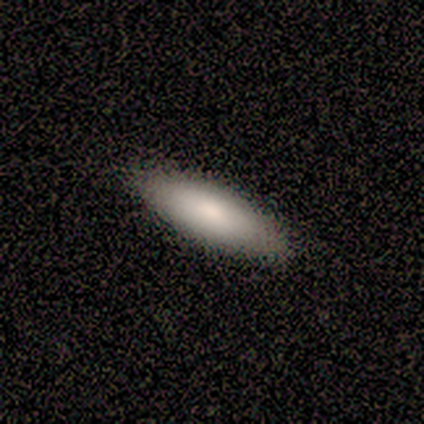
Smooth or featured? smooth (80%)
How rounded? cigar-shaped (100%)
Merging? none (100%)